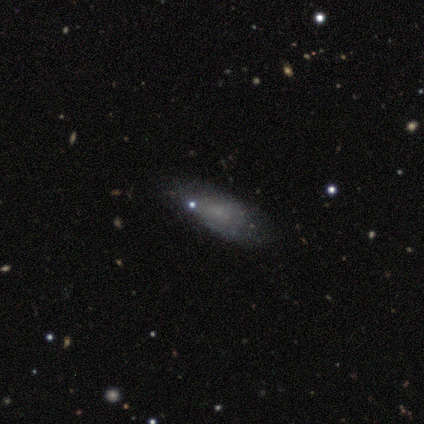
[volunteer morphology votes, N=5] Q: Smooth or featured?
A: featured or disk (60%); runner-up: smooth (40%)
Q: Edge-on disk?
A: no (100%)
Q: Bar?
A: no (100%)
Q: Spiral arms?
A: no (100%)
Q: Bulge size?
A: small (67%); runner-up: none (33%)
Q: Merging?
A: minor disturbance (60%); runner-up: none (40%)